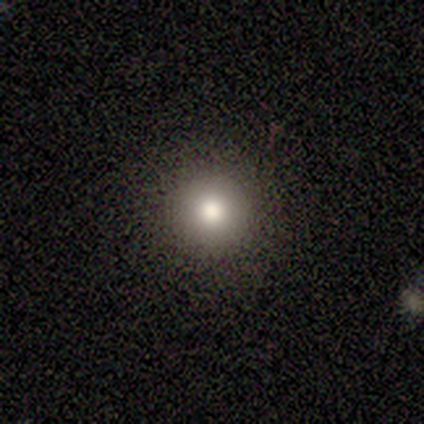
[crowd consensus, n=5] Q: Smooth or featured?
A: smooth (60%); runner-up: star or artifact (40%)
Q: How rounded?
A: round (100%)
Q: Merging?
A: none (67%); runner-up: minor disturbance (33%)